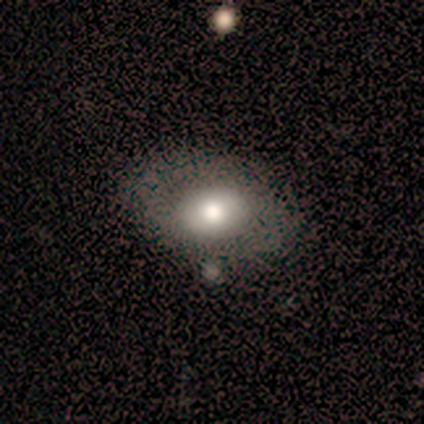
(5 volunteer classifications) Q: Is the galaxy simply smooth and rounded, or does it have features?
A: featured or disk — 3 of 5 (60%).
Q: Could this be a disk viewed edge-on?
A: no — 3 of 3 (100%).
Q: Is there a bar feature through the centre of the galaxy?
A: no — 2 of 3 (67%).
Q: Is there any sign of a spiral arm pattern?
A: no — 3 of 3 (100%).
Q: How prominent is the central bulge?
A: moderate — 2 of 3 (67%).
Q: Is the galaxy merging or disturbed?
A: none — 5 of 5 (100%).